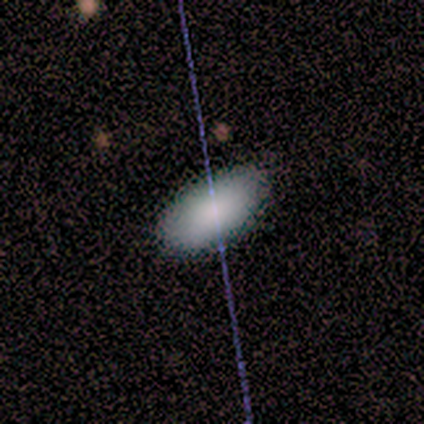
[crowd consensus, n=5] Smooth or featured? smooth (100%)
How rounded? in between (100%)
Merging? none (100%)